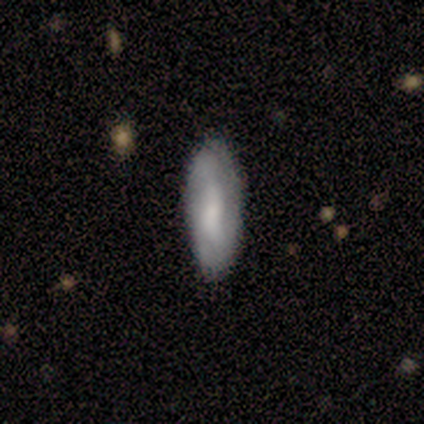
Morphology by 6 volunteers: smooth-or-featured: featured or disk: 67% | smooth: 33% | star or artifact: 0%
  disk-edge-on: no: 75% | yes: 25%
    bar: no: 67% | weak: 33% | strong: 0%
    has-spiral-arms: yes: 67% | no: 33%
      spiral-winding: tight: 50% (tied) | medium: 50% (tied) | loose: 0%
      spiral-arm-count: can't tell: 100% | 1: 0% | 2: 0% | 3: 0% | 4: 0% | more than 4: 0%
    bulge-size: moderate: 67% | small: 33% | dominant: 0% | large: 0% | none: 0%
  merging: none: 50% (tied) | minor disturbance: 50% (tied) | major disturbance: 0% | merger: 0%